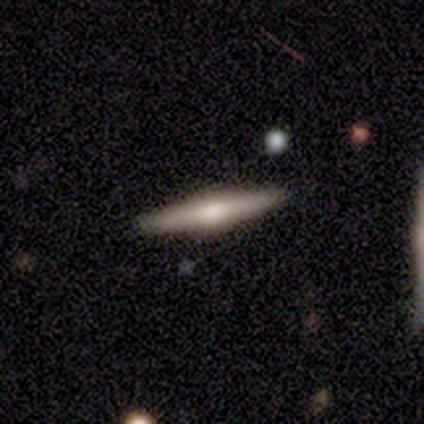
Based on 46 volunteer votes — This is likely a featured or disk galaxy (63%). It is clearly viewed edge-on (97%). Edge-on bulge: likely rounded (79%). Merging: clearly none (93%).